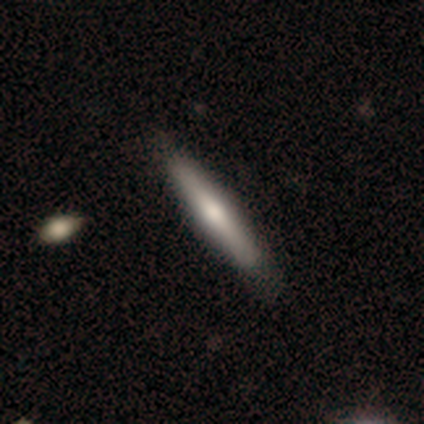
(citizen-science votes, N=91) Morphology: type=featured or disk (46%); edge-on=yes (98%); edge-on bulge=rounded (88%); merging=none (87%).